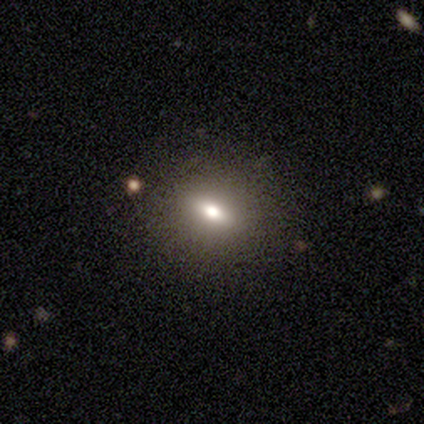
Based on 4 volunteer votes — smooth-or-featured: smooth: 75% | featured or disk: 25% | star or artifact: 0%
  how-rounded: round: 100% | in between: 0% | cigar-shaped: 0%
  merging: none: 100% | minor disturbance: 0% | major disturbance: 0% | merger: 0%